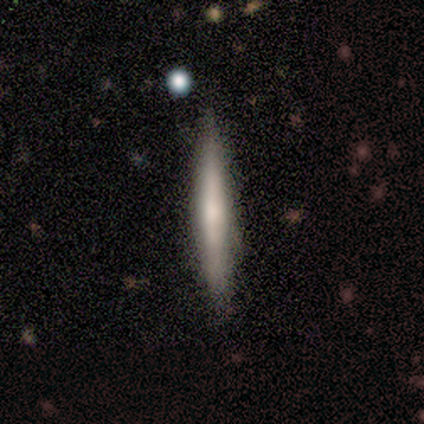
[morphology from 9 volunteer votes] This is likely a smooth galaxy (67%). How rounded: clearly cigar-shaped (100%). Merging: likely none (78%).